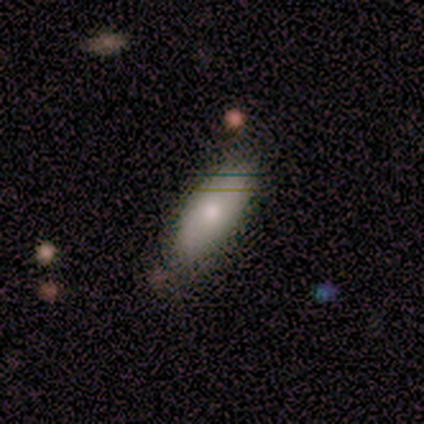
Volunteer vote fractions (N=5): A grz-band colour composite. It shows a smooth galaxy with no disk features (80%) that is in between round and cigar-shaped (100%). Merging: none (100%).